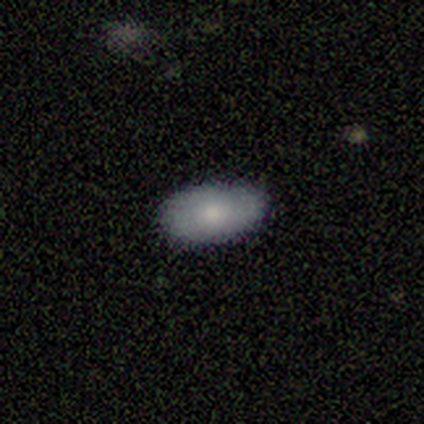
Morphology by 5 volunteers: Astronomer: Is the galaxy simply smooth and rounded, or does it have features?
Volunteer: smooth — 60% (runner-up: featured or disk, 40%).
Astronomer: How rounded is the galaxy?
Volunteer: in between — 100%.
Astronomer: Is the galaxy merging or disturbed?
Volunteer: none — 80%.